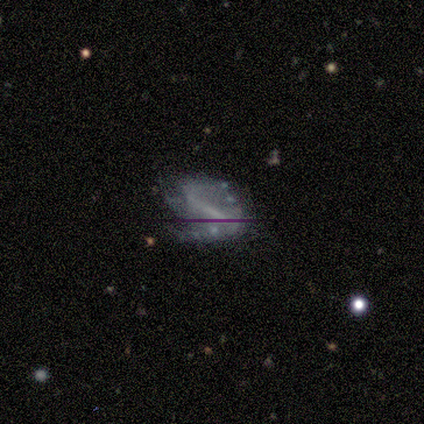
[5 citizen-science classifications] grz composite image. It shows a featured or disk galaxy (100%) with a strong bar (80%), 2 (100%) loose (67%) spiral arms (60%) and no central bulge (80%). Merging: none (60%).